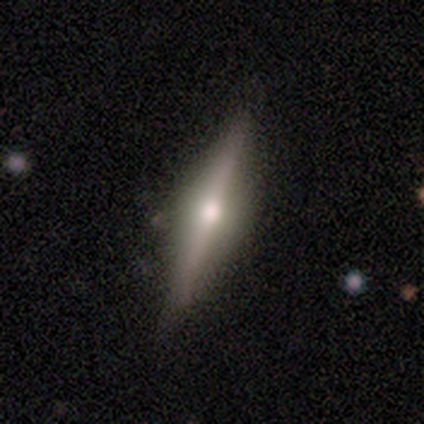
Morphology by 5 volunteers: Q: Smooth or featured?
A: featured or disk (60%); runner-up: smooth (40%)
Q: Edge-on disk?
A: yes (100%)
Q: Edge-on bulge?
A: rounded (100%)
Q: Merging?
A: none (100%)